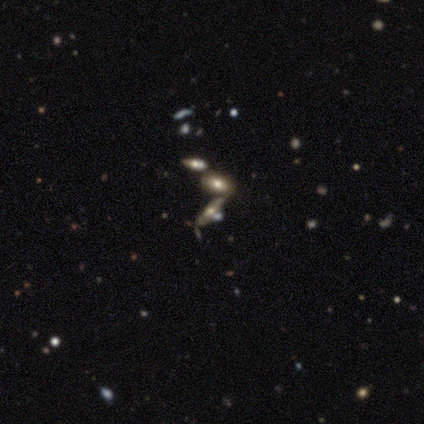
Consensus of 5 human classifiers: A smooth galaxy with no disk features (40%, tied with star or artifact) that is in between round and cigar-shaped (100%). Merging: none (67%).